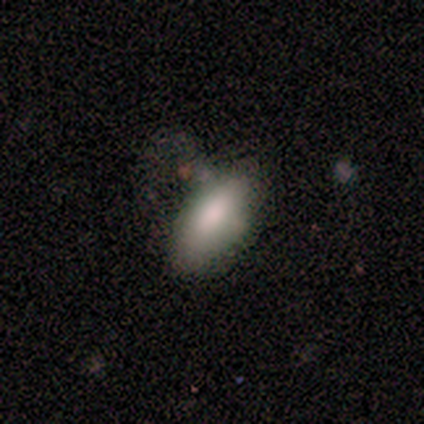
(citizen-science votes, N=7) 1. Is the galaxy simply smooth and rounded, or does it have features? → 100% smooth, 0% featured or disk, 0% star or artifact.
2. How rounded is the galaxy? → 100% in between, 0% round, 0% cigar-shaped.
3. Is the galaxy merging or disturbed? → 43% none (tied), 43% minor disturbance (tied), 14% major disturbance, 0% merger.